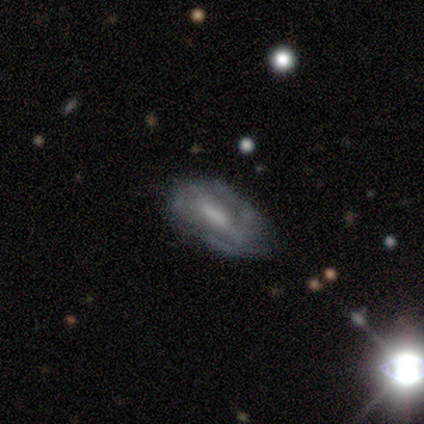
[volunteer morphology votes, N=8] type=featured or disk (75%); edge-on=no (100%); bar=no (67%); spiral arms=no (67%); bulge=moderate (67%); merging=none (57%).